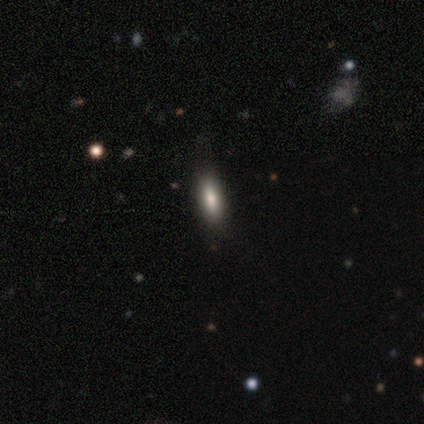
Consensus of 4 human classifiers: Overall: smooth (100%). How rounded: in between (50%; round 25%). Merging: none (100%).